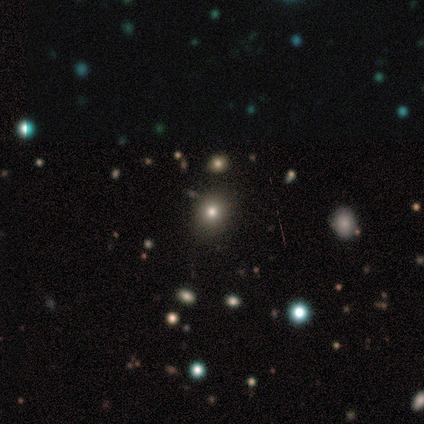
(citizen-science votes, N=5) This is clearly a smooth galaxy (80%). How rounded: likely round (75%). Merging: likely none (75%).